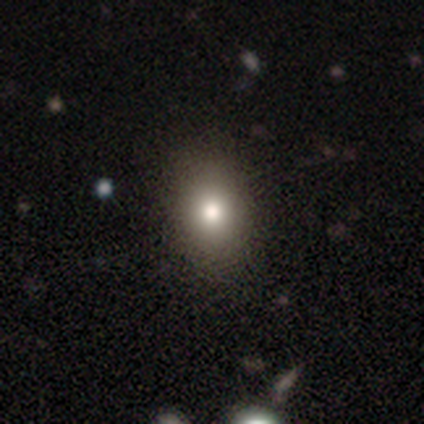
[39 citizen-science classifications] Smooth or featured: smooth — 77% (star or artifact — 15%)
How rounded: in between — 70% (round — 30%)
Merging: none — 64% (minor disturbance — 3%)